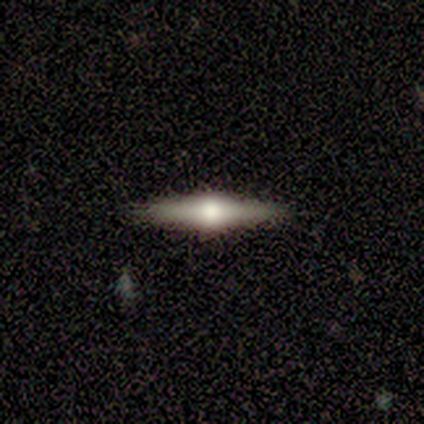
smooth_or_featured: featured or disk (p=1.00)
disk_edge_on: yes (p=1.00)
edge_on_bulge: rounded (p=0.80) [alt: boxy p=0.20]
merging: none (p=1.00)